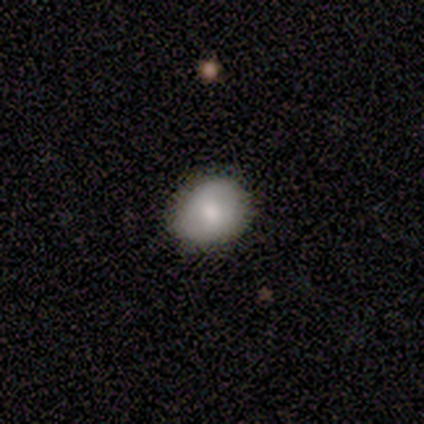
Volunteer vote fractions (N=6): This is possibly a smooth galaxy (50%). How rounded: clearly round (100%). Merging: clearly none (100%).